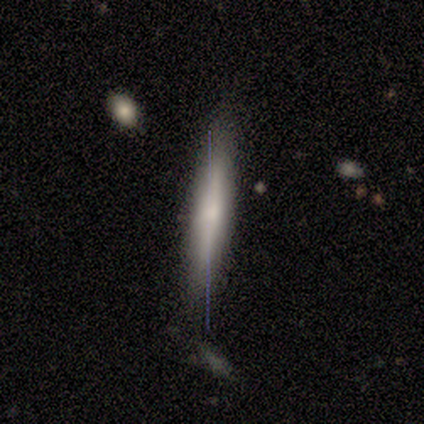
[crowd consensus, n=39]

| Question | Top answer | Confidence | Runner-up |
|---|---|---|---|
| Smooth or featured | smooth | 49% | featured or disk (41%) |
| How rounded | cigar-shaped | 100% | — |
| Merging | none | 71% | minor disturbance (14%) |